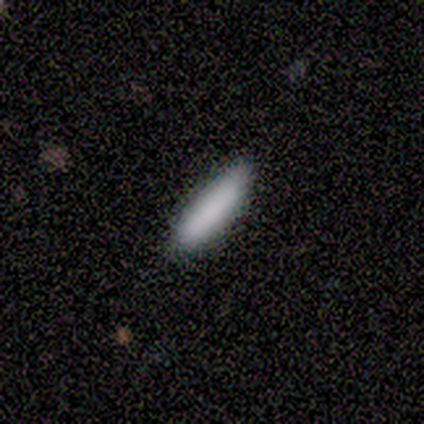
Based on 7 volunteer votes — Smooth or featured?
  - smooth: 86% *
  - featured or disk: 14%
  - star or artifact: 0%
How rounded?
  - cigar-shaped: 67% *
  - in between: 33%
  - round: 0%
Merging?
  - none: 71% *
  - minor disturbance: 29%
  - major disturbance: 0%
  - merger: 0%